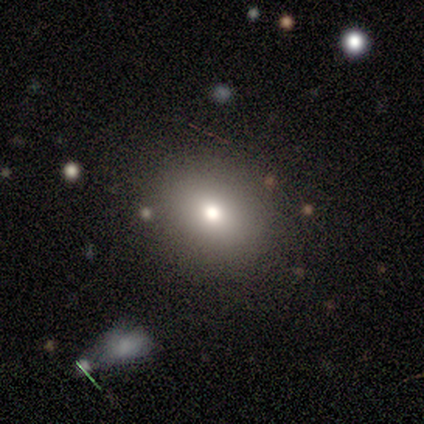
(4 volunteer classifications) smooth 100%, featured or disk 0%, star or artifact 0%. Down the decision tree: how rounded — round (75%); merging — none (75%).